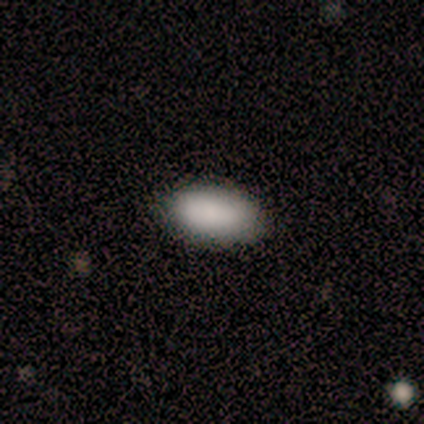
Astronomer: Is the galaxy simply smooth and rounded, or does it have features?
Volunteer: smooth — 88%.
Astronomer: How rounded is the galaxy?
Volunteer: in between — 86%.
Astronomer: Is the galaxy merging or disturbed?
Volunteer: none — 88%.